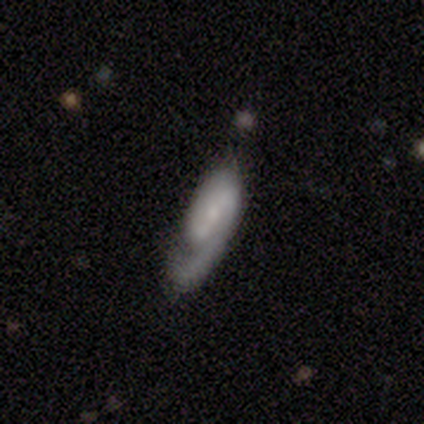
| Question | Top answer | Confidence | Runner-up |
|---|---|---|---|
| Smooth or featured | featured or disk | 80% | smooth (20%) |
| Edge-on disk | no | 100% | — |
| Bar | weak | 100% | — |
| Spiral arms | yes | 100% | — |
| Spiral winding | tight | 50% | medium (25%) |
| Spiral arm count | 1 | 50% | tied: 2 (50%) |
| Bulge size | none | 50% | moderate (25%) |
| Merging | none | 40% | tied: minor disturbance (40%) |